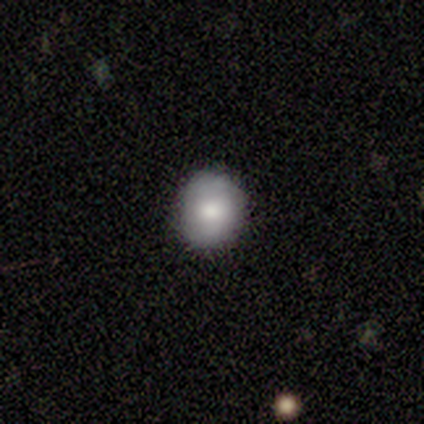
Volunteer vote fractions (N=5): Morphology: type=smooth (80%); roundness=round (75%); merging=none (100%).